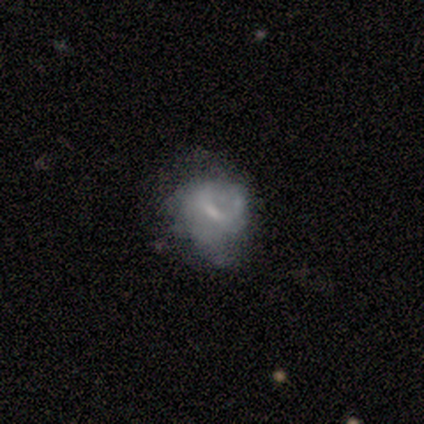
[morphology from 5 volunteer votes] Volunteers were most divided on "merging" (2-way tie): none: 40%, minor disturbance: 40%, major disturbance: 20%, merger: 0%. More confident: edge-on disk — no (100%); smooth or featured — featured or disk (80%); bar — no (75%); spiral arms — no (75%); bulge size — small (75%).